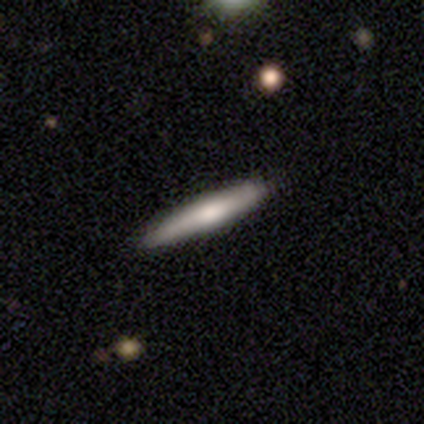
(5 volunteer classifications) Volunteers were most divided on "smooth or featured": smooth: 60%, featured or disk: 40%, star or artifact: 0%. More confident: how rounded — cigar-shaped (100%); merging — none (80%).